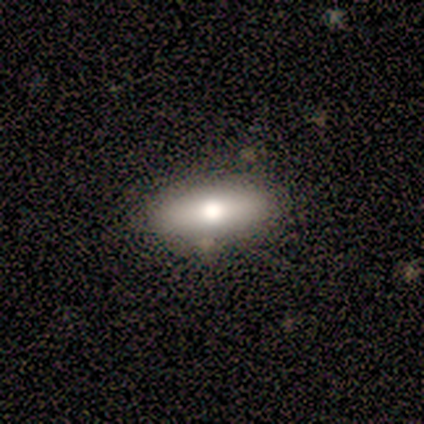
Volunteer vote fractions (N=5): Smooth or featured? 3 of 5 (60%) said smooth. How rounded? 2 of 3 (67%) said in between. Merging? 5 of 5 (100%) said none.